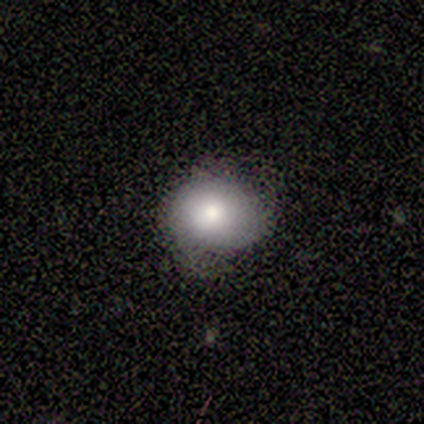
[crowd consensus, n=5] smooth 80%, featured or disk 20%, star or artifact 0%. Down the decision tree: how rounded — round (75%); merging — none (80%).